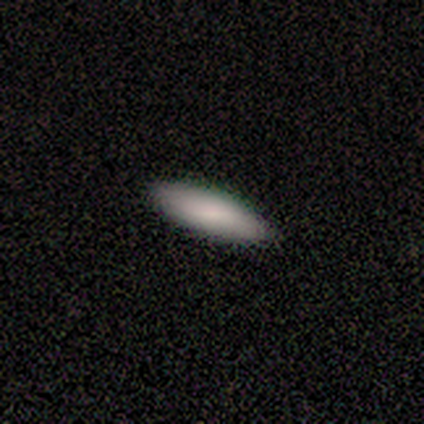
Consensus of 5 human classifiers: A smooth galaxy with no disk features (100%) that is in between round and cigar-shaped (80%). Merging: none (100%).